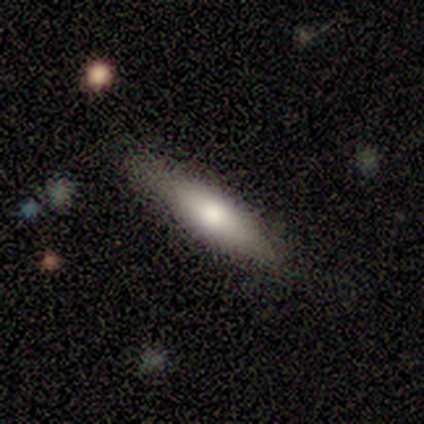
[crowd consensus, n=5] Smooth or featured? 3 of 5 (60%) said smooth. How rounded? 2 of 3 (67%) said cigar-shaped. Merging? 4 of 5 (80%) said none.